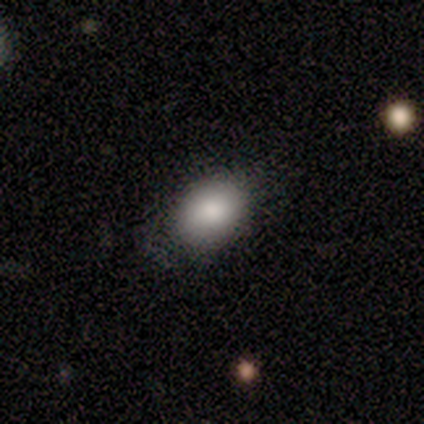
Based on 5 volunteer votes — Smooth or featured? smooth (100%)
How rounded? in between (80%)
Merging? none (80%)